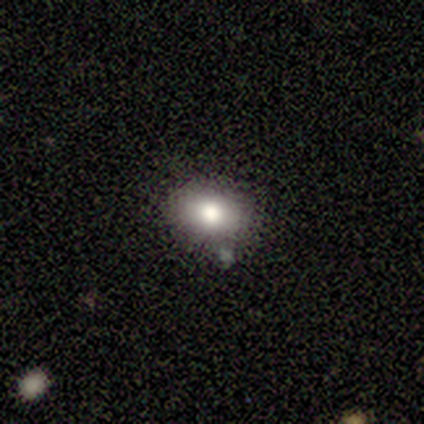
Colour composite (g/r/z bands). It shows a smooth galaxy with no disk features (60%) that is in between round and cigar-shaped (67%). Merging: minor disturbance (40%).